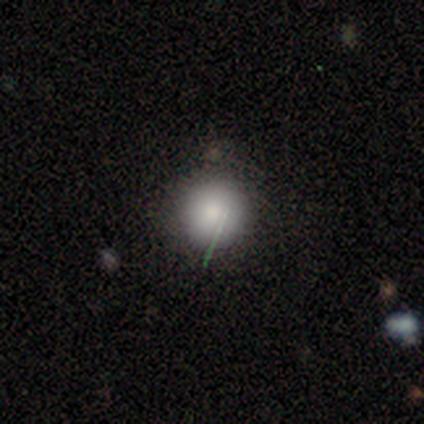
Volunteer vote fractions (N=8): Morphology: type=smooth (75%); roundness=round (100%); merging=none (67%).